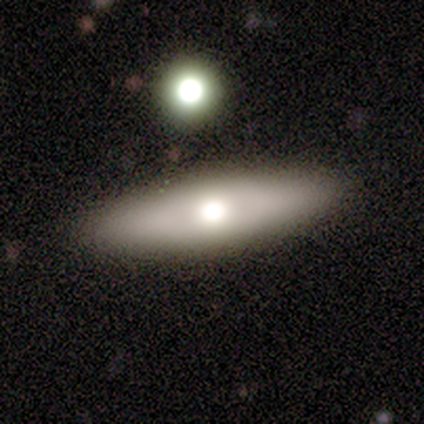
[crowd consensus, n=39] Smooth or featured?
  - smooth: 51% *
  - featured or disk: 44%
  - star or artifact: 5%
How rounded?
  - in between: 50% * (tied)
  - cigar-shaped: 50% * (tied)
  - round: 0%
Merging?
  - none: 86% *
  - minor disturbance: 5%
  - merger: 5%
  - major disturbance: 3%